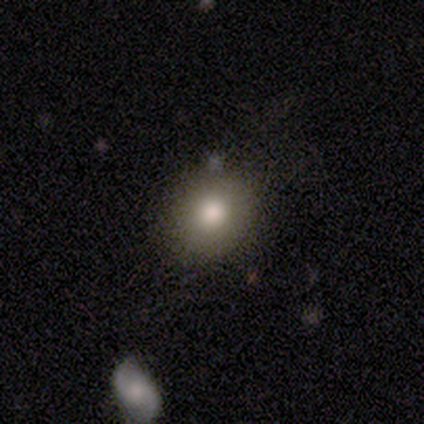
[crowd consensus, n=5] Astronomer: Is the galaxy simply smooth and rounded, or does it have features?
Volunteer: smooth — 80%.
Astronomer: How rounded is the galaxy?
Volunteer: round — 75%.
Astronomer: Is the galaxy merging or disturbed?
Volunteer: none — 80%.